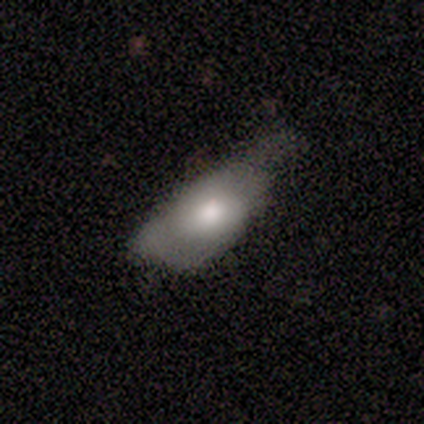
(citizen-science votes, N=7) smooth_or_featured: smooth (p=0.86) [alt: star or artifact p=0.14]
how_rounded: in between (p=1.00)
merging: minor disturbance (p=0.67) [alt: none p=0.17]